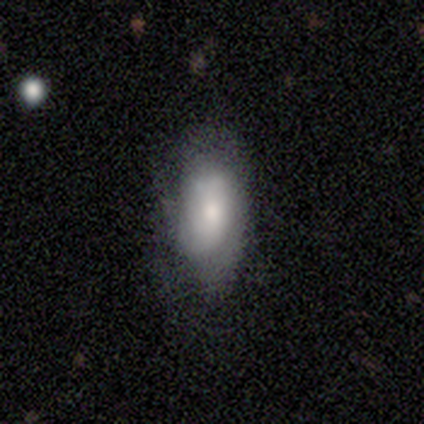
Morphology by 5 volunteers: smooth-or-featured: smooth: 100% | featured or disk: 0% | star or artifact: 0%
  how-rounded: in between: 100% | round: 0% | cigar-shaped: 0%
  merging: none: 60% | minor disturbance: 20% | major disturbance: 20% | merger: 0%